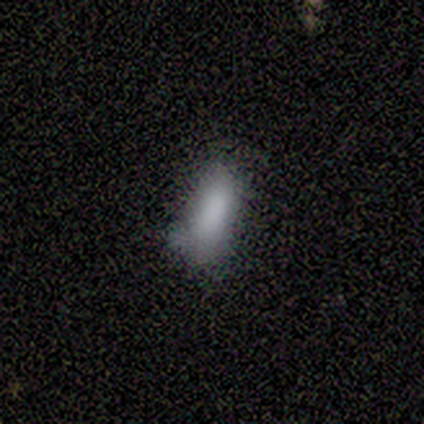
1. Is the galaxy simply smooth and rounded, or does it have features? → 100% smooth, 0% featured or disk, 0% star or artifact.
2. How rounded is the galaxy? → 100% in between, 0% round, 0% cigar-shaped.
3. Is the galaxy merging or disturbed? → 60% minor disturbance, 20% none, 20% merger, 0% major disturbance.